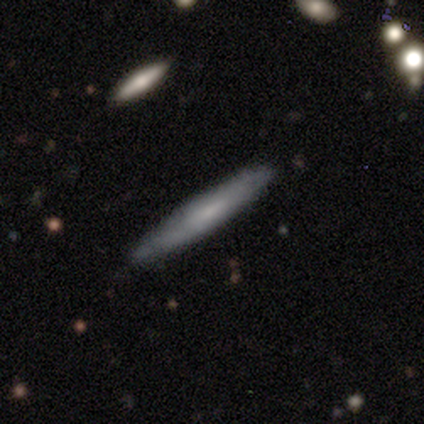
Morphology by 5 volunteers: smooth 80%, featured or disk 20%, star or artifact 0%. Down the decision tree: how rounded — cigar-shaped (100%); merging — none (80%).